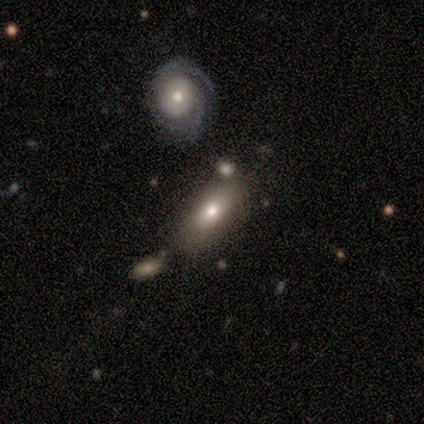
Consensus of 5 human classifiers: Smooth or featured: smooth — 100%
How rounded: in between — 80% (round — 20%)
Merging: none — 100%